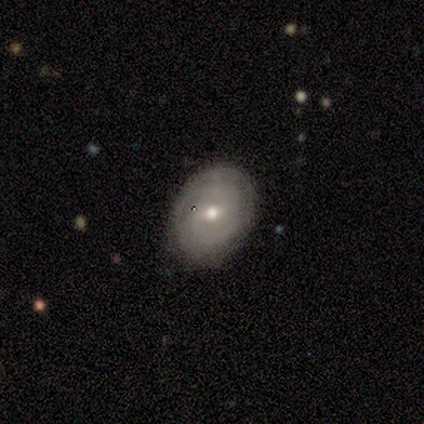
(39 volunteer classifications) smooth_or_featured: featured or disk (p=0.69) [alt: smooth p=0.23]
disk_edge_on: no (p=0.93) [alt: yes p=0.07]
bar: no (p=0.48) [alt: weak p=0.44]
has_spiral_arms: yes (p=0.84) [alt: no p=0.16]
spiral_winding: tight (p=0.90) [alt: medium p=0.10]
spiral_arm_count: can't tell (p=0.43) [alt: 2 p=0.38]
bulge_size: moderate (p=0.76) [alt: small p=0.20]
merging: none (p=0.86) [alt: minor disturbance p=0.11]